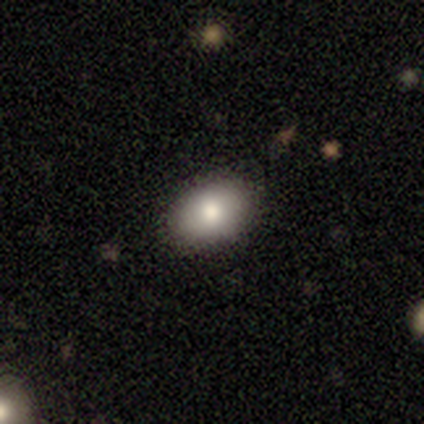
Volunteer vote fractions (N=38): Q: Smooth or featured?
A: smooth (82%); runner-up: featured or disk (13%)
Q: How rounded?
A: in between (87%); runner-up: round (13%)
Q: Merging?
A: none (94%); runner-up: minor disturbance (3%)